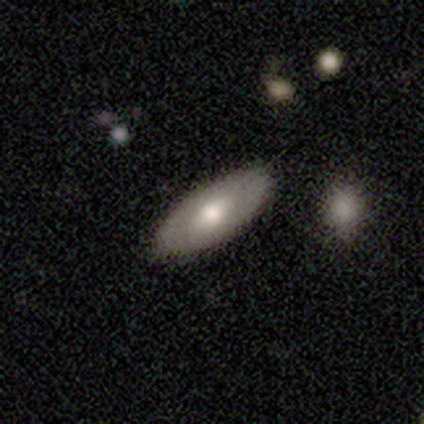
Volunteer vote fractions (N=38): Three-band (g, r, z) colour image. It shows a smooth galaxy with no disk features (58%) that is in between round and cigar-shaped (95%). Merging: none (94%).